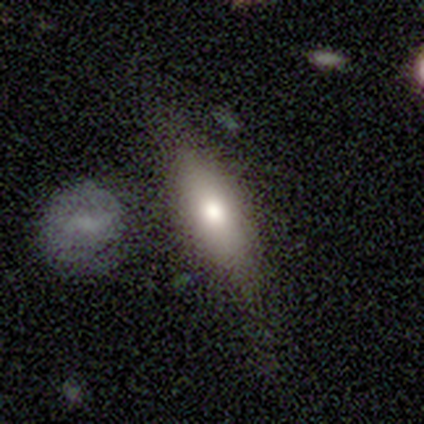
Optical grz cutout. It shows a smooth galaxy with no disk features (60%) that is in between round and cigar-shaped (67%). Merging: none (100%).